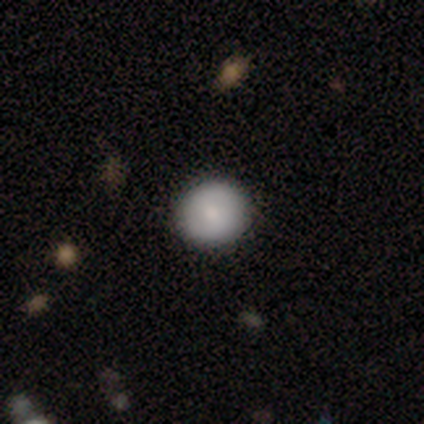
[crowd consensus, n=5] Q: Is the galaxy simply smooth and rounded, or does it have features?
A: smooth — 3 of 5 (60%).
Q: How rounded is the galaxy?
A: round — 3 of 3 (100%).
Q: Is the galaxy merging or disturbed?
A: none — 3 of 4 (75%).